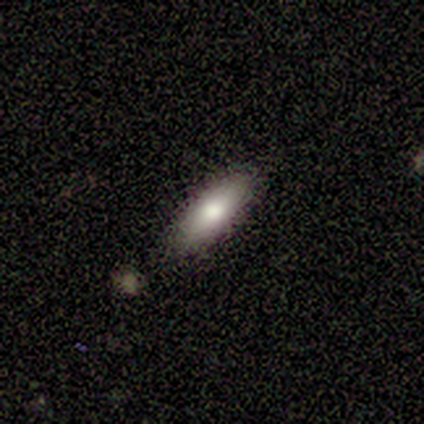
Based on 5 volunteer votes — Smooth or featured: featured or disk — 60% (smooth — 40%)
Edge-on disk: yes — 67% (no — 33%)
Edge-on bulge: rounded — 100%
Merging: none — 100%